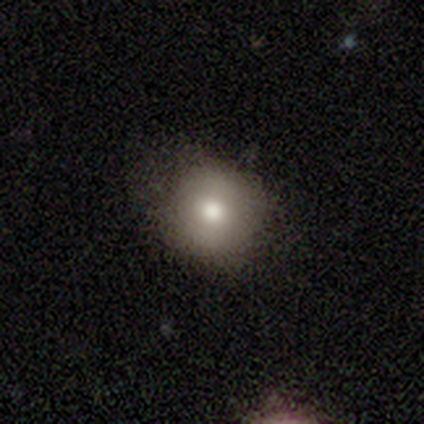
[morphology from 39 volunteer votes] smooth_or_featured: smooth (p=0.82) [alt: featured or disk p=0.10]
how_rounded: round (p=0.84) [alt: in between p=0.16]
merging: none (p=0.78) [alt: minor disturbance p=0.19]